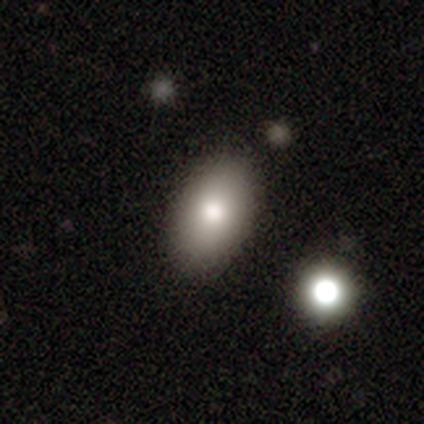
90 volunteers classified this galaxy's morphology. smooth_or_featured: smooth (p=0.87) [alt: star or artifact p=0.09]
how_rounded: in between (p=0.94) [alt: round p=0.05]
merging: none (p=0.85) [alt: minor disturbance p=0.09]